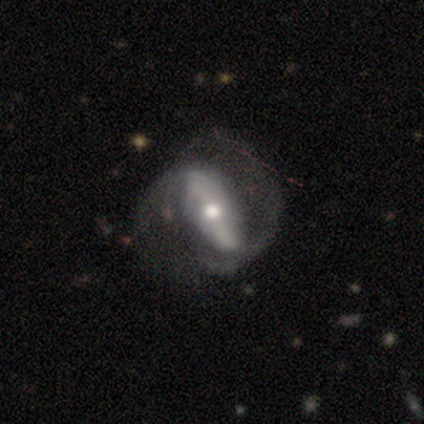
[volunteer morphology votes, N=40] A featured or disk galaxy (85%) with a strong bar (66%), 2 (78%) medium (41%, tied with loose) spiral arms (84%) and a moderate central bulge (72%).

Vote fractions:
- Smooth or featured? featured or disk: 85% / smooth: 12% / star or artifact: 2%
- Edge-on disk? no: 94% / yes: 6%
- Bar? strong: 66% / no: 22% / weak: 12%
- Spiral arms? yes: 84% / no: 16%
- Spiral winding? medium: 41% (tied) / loose: 41% (tied) / tight: 19%
- Spiral arm count? 2: 78% / can't tell: 15% / 1: 4% / 3: 4% / 4: 0% / more than 4: 0%
- Bulge size? moderate: 72% / small: 25% / large: 3% / dominant: 0% / none: 0%
- Merging? none: 59% / major disturbance: 21% / minor disturbance: 15% / merger: 5%